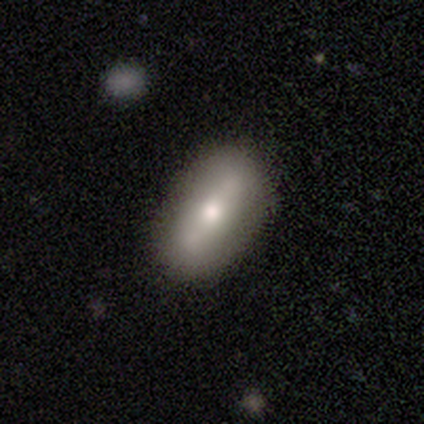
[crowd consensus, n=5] Smooth or featured?
  - smooth: 60% *
  - featured or disk: 40%
  - star or artifact: 0%
How rounded?
  - in between: 100% *
  - round: 0%
  - cigar-shaped: 0%
Merging?
  - none: 100% *
  - minor disturbance: 0%
  - major disturbance: 0%
  - merger: 0%